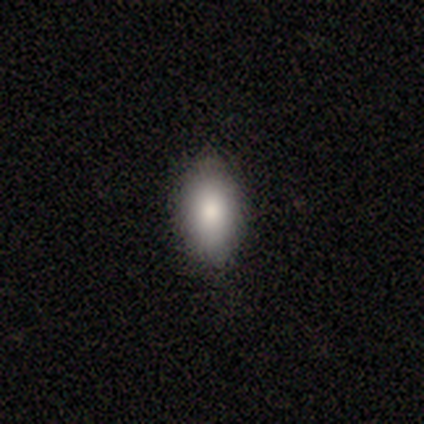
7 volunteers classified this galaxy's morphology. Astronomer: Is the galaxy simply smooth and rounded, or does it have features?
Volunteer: smooth — 86%.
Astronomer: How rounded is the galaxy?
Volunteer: in between — 67%.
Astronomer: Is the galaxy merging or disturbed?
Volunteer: none — 100%.